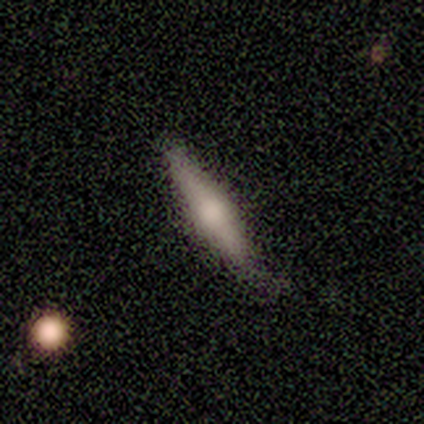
This is likely a smooth galaxy (62%). How rounded: likely cigar-shaped (62%). Merging: likely none (69%).